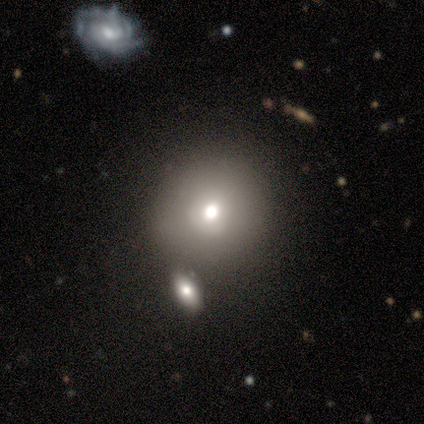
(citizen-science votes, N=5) A smooth galaxy with no disk features (80%) that is round (100%). Merging: none (100%).